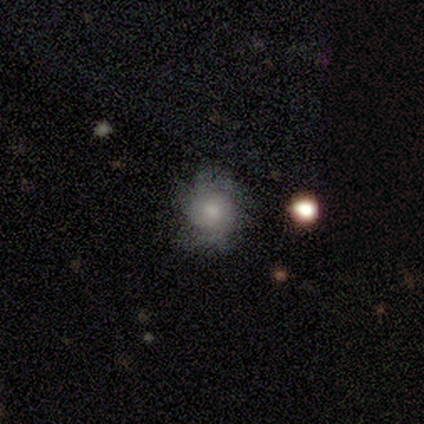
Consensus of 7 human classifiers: Overall: featured or disk (57%; smooth 43%). Edge-on disk: no (100%). Bar: no (75%). Spiral arms: yes (75%). Spiral arm count: can't tell (67%; 2 33%). Spiral winding: tight (33%, tied with medium and loose). Bulge size: moderate (50%; large 25%). Merging: none (86%).